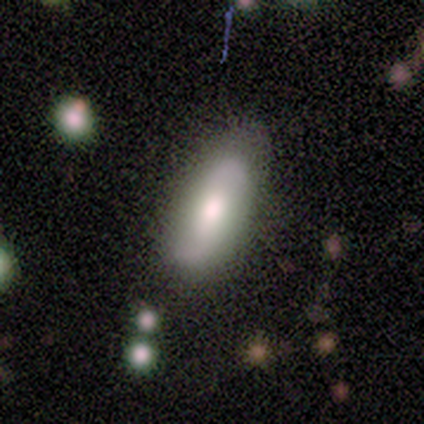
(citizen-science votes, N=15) Smooth or featured? 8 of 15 (53%) said smooth. How rounded? 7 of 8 (88%) said in between. Merging? 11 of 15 (73%) said none.